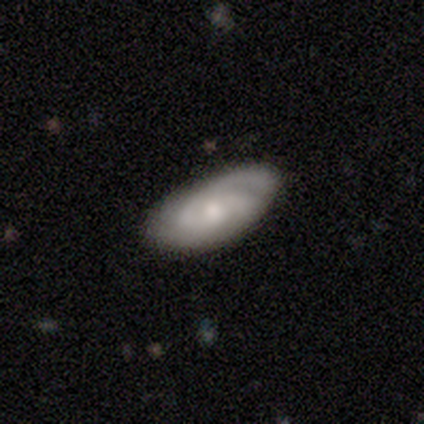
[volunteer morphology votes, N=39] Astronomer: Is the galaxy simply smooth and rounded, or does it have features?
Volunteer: featured or disk — 59% (runner-up: smooth, 36%).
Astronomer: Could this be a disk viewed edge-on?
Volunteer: no — 91%.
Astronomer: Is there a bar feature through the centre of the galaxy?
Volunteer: no — 62%.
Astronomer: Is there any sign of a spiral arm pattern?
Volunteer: yes — 90%.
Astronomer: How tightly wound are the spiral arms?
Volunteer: medium — 53% (runner-up: tight, 37%).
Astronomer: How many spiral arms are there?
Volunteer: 2 — 42% (runner-up: 3, 32%).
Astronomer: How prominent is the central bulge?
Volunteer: moderate — 43% (runner-up: small, 38%).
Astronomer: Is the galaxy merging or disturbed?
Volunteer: none — 86%.